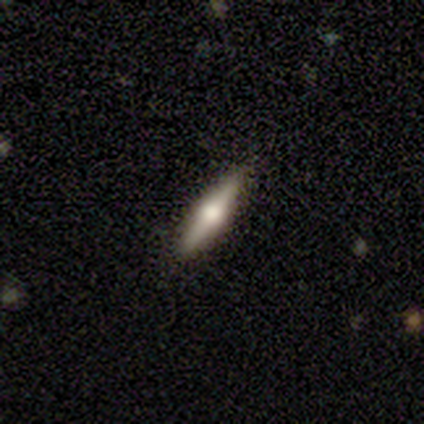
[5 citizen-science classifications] Q: Smooth or featured?
A: smooth (60%); runner-up: featured or disk (20%)
Q: How rounded?
A: cigar-shaped (100%)
Q: Merging?
A: none (75%); runner-up: minor disturbance (25%)